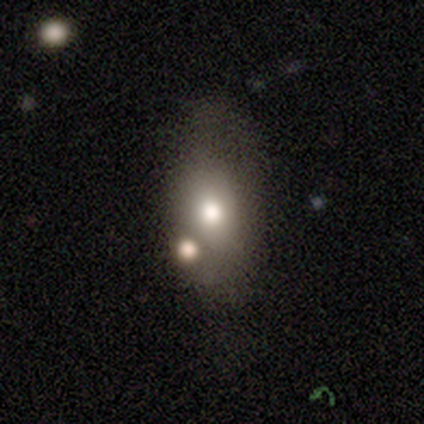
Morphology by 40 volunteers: smooth_or_featured: smooth (p=0.57) [alt: featured or disk p=0.23]
how_rounded: in between (p=0.96) [alt: cigar-shaped p=0.04]
merging: none (p=0.50) [alt: merger p=0.22]